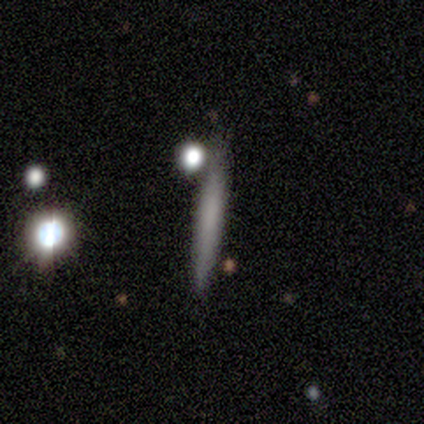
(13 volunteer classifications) smooth-or-featured: smooth: 69% | featured or disk: 31% | star or artifact: 0%
  how-rounded: cigar-shaped: 100% | round: 0% | in between: 0%
  merging: none: 85% | minor disturbance: 8% | major disturbance: 8% | merger: 0%